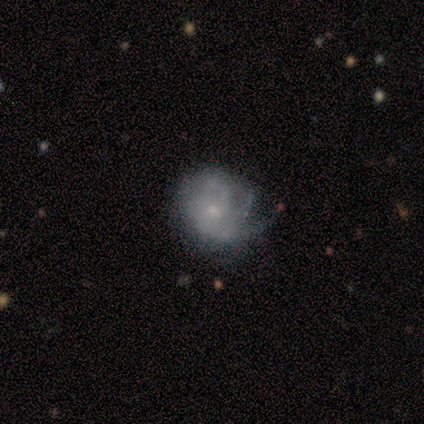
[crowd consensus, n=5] This is likely a smooth galaxy (60%). How rounded: clearly round (100%). Merging: marginally none (40%, tied with major disturbance).